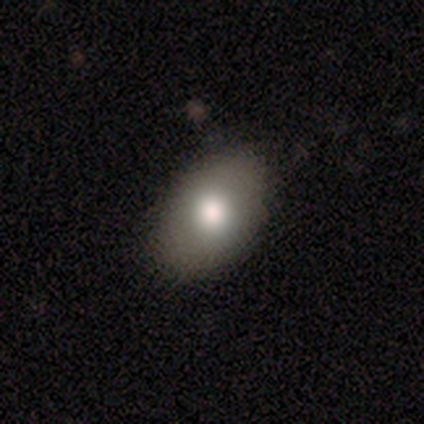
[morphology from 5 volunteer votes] Smooth or featured?
  - smooth: 60% *
  - star or artifact: 40%
  - featured or disk: 0%
How rounded?
  - in between: 100% *
  - round: 0%
  - cigar-shaped: 0%
Merging?
  - none: 100% *
  - minor disturbance: 0%
  - major disturbance: 0%
  - merger: 0%